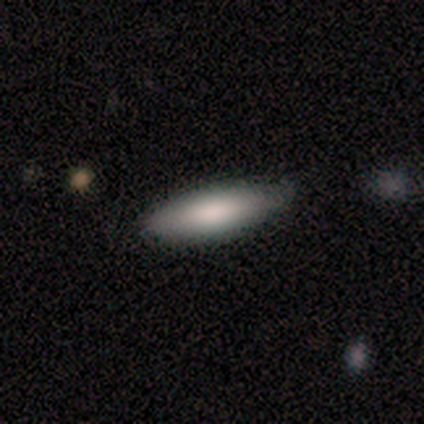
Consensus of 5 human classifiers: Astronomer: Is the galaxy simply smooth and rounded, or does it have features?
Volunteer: smooth — 100%.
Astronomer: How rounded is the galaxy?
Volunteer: cigar-shaped — 60% (runner-up: in between, 40%).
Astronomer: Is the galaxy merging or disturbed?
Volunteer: none — 100%.